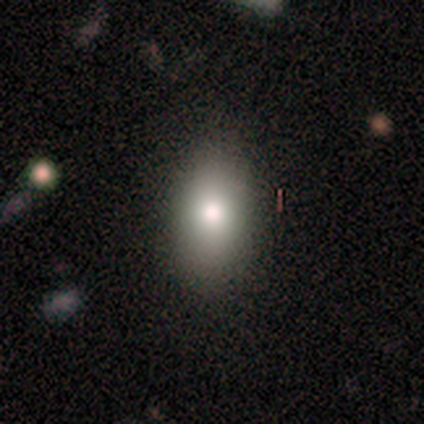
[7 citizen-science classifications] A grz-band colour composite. It shows a smooth galaxy with no disk features (71%) that is in between round and cigar-shaped (80%). Merging: none (100%).